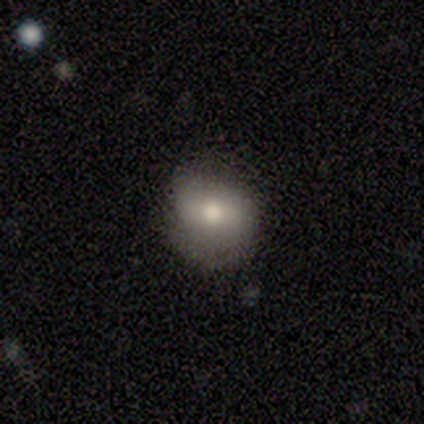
smooth_or_featured: smooth (p=0.64) [alt: featured or disk p=0.27]
how_rounded: round (p=0.78) [alt: in between p=0.22]
merging: none (p=0.47) [alt: minor disturbance p=0.14]